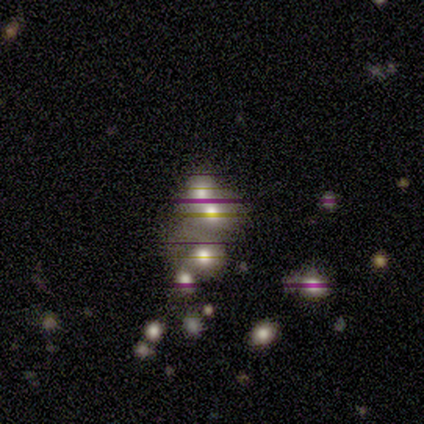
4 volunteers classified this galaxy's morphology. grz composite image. It shows a smooth galaxy with no disk features (75%) that is round (67%). Merging: none (33%, tied with minor disturbance and merger).